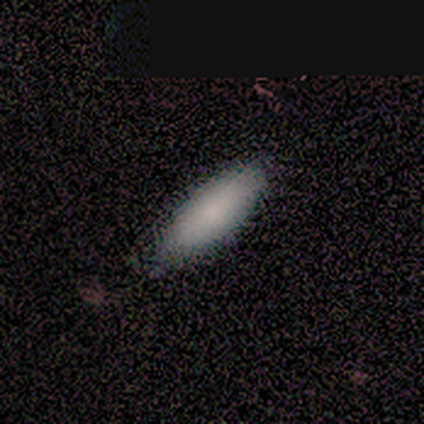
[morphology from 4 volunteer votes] Smooth or featured?
  - smooth: 100% *
  - featured or disk: 0%
  - star or artifact: 0%
How rounded?
  - in between: 75% *
  - cigar-shaped: 25%
  - round: 0%
Merging?
  - none: 100% *
  - minor disturbance: 0%
  - major disturbance: 0%
  - merger: 0%